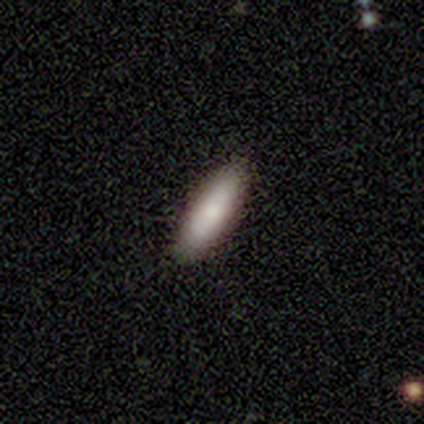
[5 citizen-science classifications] This is clearly a smooth galaxy (80%). How rounded: likely in between (75%). Merging: likely none (60%).